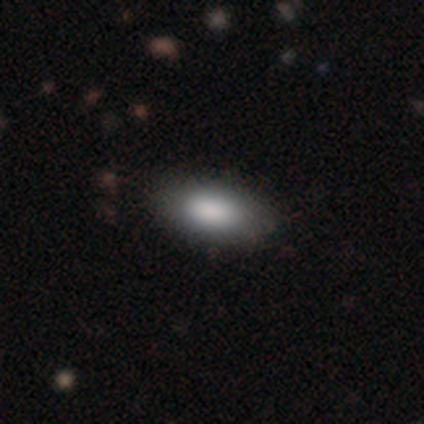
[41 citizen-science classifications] Smooth or featured?
  - smooth: 80% *
  - featured or disk: 12%
  - star or artifact: 7%
How rounded?
  - in between: 91% *
  - cigar-shaped: 6%
  - round: 3%
Merging?
  - none: 100% *
  - minor disturbance: 0%
  - major disturbance: 0%
  - merger: 0%